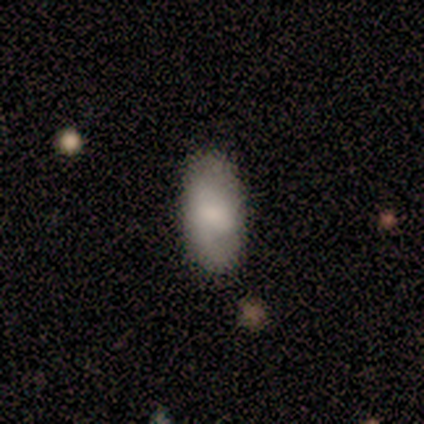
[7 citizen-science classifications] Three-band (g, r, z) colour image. It shows a featured or disk galaxy (57%) with no bar (67%), 1 (50%, tied with can't tell) tight (50%, tied with loose) spiral arms (67%) and a moderate central bulge (67%). Merging: none (71%).